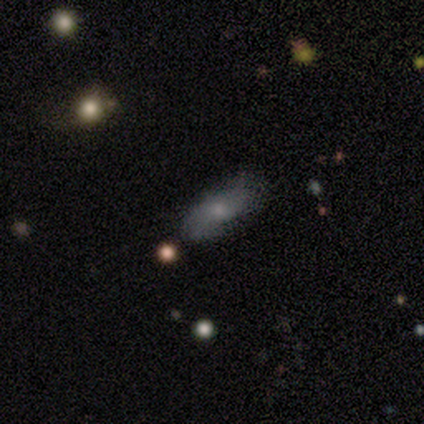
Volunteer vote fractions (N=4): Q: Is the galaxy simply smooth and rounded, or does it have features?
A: smooth — 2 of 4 (50%, tied with featured or disk).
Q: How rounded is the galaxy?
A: cigar-shaped — 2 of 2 (100%).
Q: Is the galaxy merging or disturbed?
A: minor disturbance — 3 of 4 (75%).